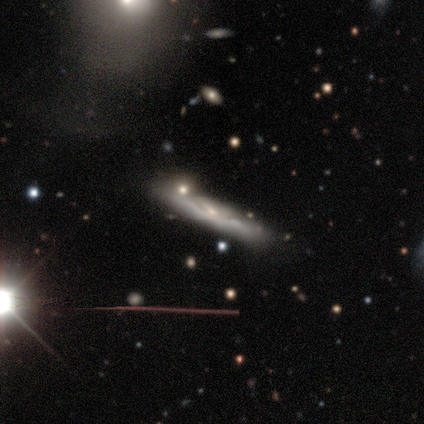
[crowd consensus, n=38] Smooth or featured? featured or disk (63%)
Edge-on disk? yes (75%)
Edge-on bulge? none (67%)
Merging? none (66%)